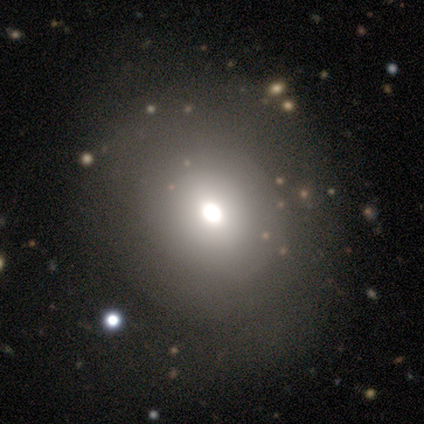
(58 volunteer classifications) This appears to be a smooth galaxy with no disk features (64%) that is round (65%). Merging: none (49%).